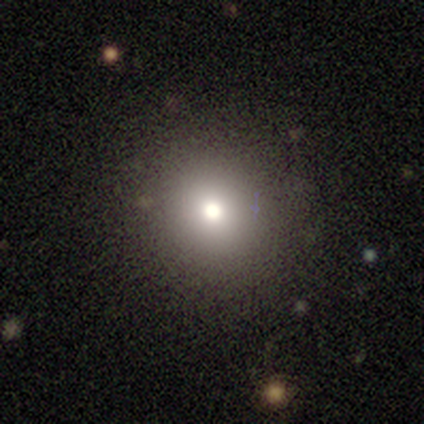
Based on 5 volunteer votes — star or artifact 60%, smooth 40%, featured or disk 0%.